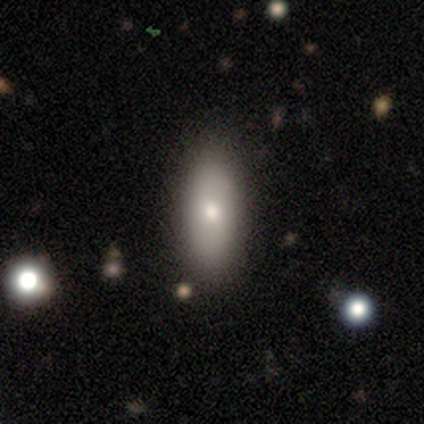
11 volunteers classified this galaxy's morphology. Volunteers were most divided on "smooth or featured": smooth: 64%, featured or disk: 27%, star or artifact: 9%. More confident: merging — none (80%); how rounded — in between (71%).